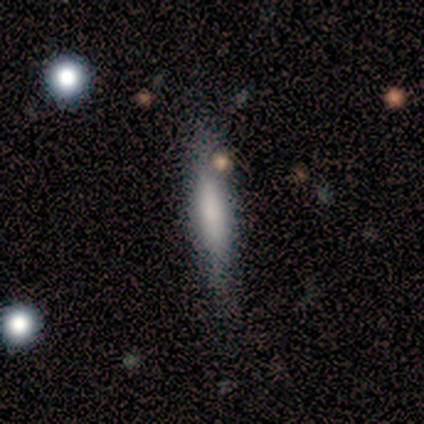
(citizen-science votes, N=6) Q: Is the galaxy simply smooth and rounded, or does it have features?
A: smooth — 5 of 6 (83%).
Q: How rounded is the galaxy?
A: cigar-shaped — 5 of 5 (100%).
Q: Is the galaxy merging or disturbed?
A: none — 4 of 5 (80%).